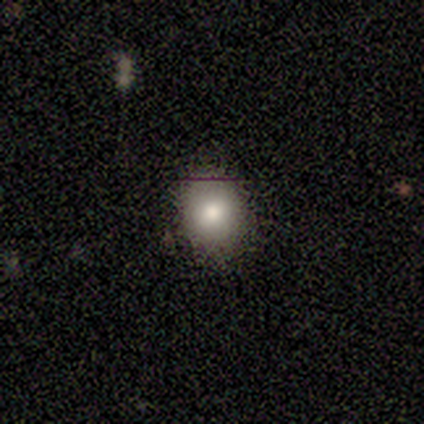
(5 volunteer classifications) Morphology: type=smooth (60%); roundness=round (67%); merging=none (75%).